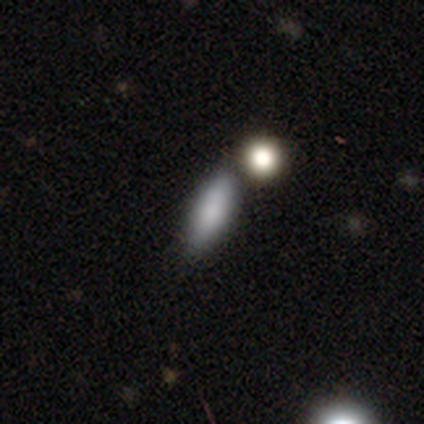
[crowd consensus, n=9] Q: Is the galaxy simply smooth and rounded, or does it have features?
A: smooth — 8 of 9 (89%).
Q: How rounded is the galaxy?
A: in between — 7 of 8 (88%).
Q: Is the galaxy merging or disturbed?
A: none — 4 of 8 (50%).